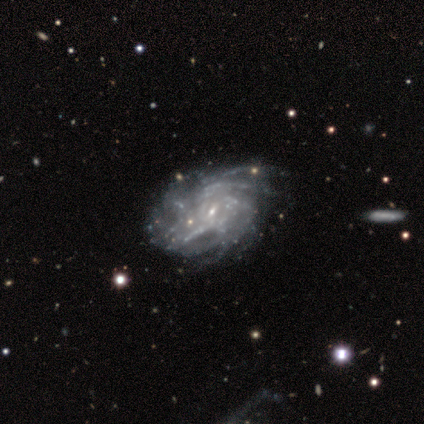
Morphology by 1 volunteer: Smooth or featured? featured or disk (100%)
Edge-on disk? no (100%)
Bar? weak (100%)
Spiral arms? yes (100%)
Spiral winding? tight (100%)
Spiral arm count? can't tell (100%)
Bulge size? small (100%)
Merging? none (100%)